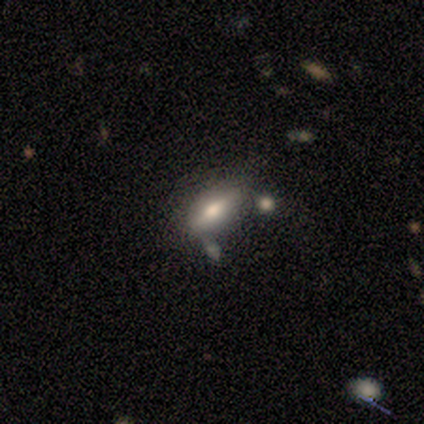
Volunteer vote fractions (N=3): smooth_or_featured: smooth (p=1.00)
how_rounded: in between (p=1.00)
merging: merger (p=0.67) [alt: minor disturbance p=0.33]